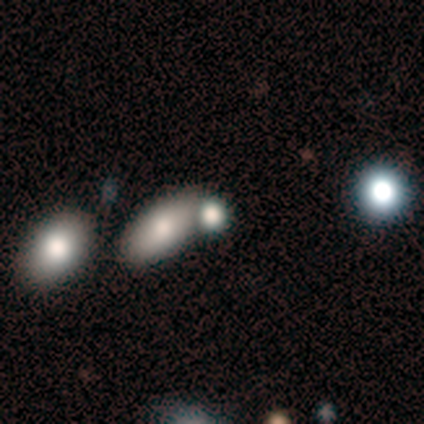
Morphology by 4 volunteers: smooth-or-featured: smooth: 75% | star or artifact: 25% | featured or disk: 0%
  how-rounded: in between: 67% | round: 33% | cigar-shaped: 0%
  merging: none: 67% | merger: 33% | minor disturbance: 0% | major disturbance: 0%